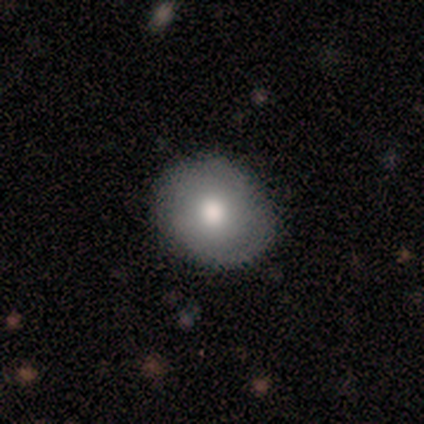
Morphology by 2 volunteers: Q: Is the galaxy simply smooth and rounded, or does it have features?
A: smooth — 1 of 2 (50%, tied with featured or disk).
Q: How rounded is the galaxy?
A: round — 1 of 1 (100%).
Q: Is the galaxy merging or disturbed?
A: none — 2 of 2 (100%).